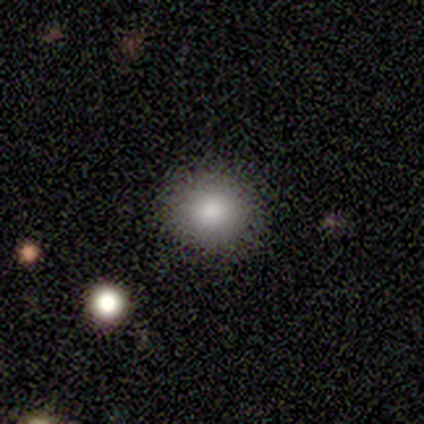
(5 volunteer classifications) smooth-or-featured: smooth: 100% | featured or disk: 0% | star or artifact: 0%
  how-rounded: round: 100% | in between: 0% | cigar-shaped: 0%
  merging: none: 80% | minor disturbance: 20% | major disturbance: 0% | merger: 0%